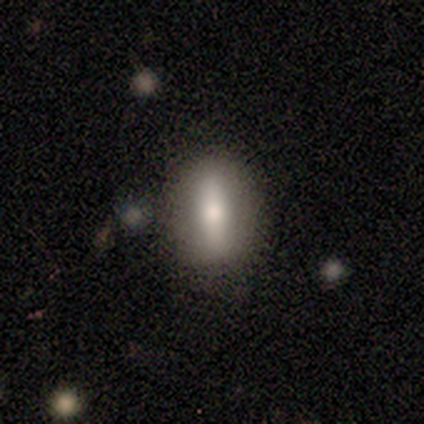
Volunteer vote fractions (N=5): This is likely a featured or disk galaxy (60%). It is likely not viewed edge-on (67%). Bar: clearly strong (100%). Spiral arm pattern: clearly no (100%). Central bulge: clearly moderate (100%). Merging: likely none (75%).